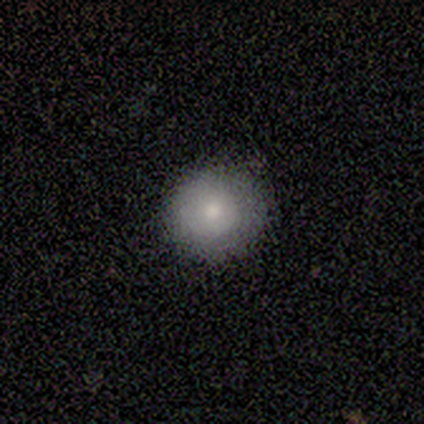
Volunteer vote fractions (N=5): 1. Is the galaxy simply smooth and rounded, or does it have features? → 80% smooth, 20% star or artifact, 0% featured or disk.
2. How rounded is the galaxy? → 100% round, 0% in between, 0% cigar-shaped.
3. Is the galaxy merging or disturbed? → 75% none, 25% major disturbance, 0% minor disturbance, 0% merger.